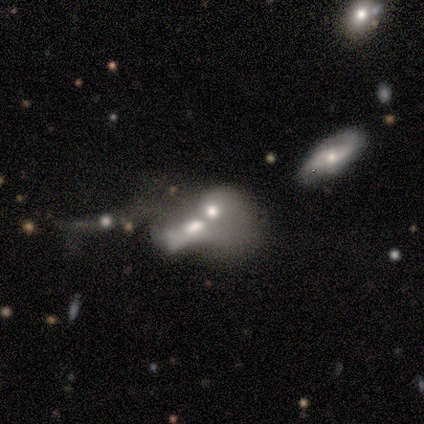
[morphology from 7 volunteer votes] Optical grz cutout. It shows a featured or disk galaxy (71%) with no bar (100%), no spiral arms (80%) and a moderate central bulge (40%, tied with small). Merging: merger (67%).